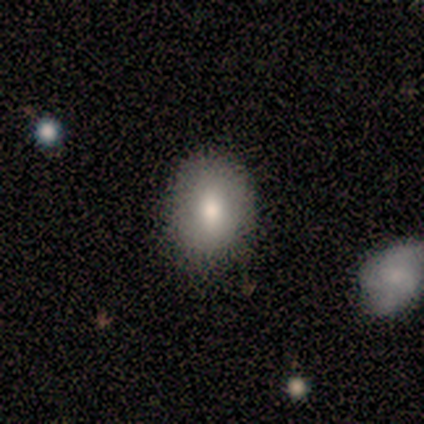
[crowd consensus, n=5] A smooth galaxy with no disk features (100%) that is in between round and cigar-shaped (60%). Merging: none (80%).